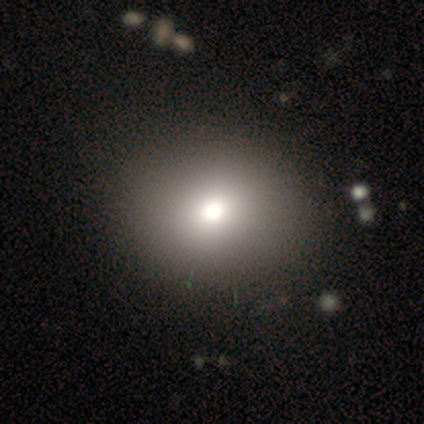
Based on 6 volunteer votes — Volunteers were most divided on "smooth or featured": smooth: 67%, featured or disk: 17%, star or artifact: 17%. More confident: merging — none (100%); how rounded — round (75%).